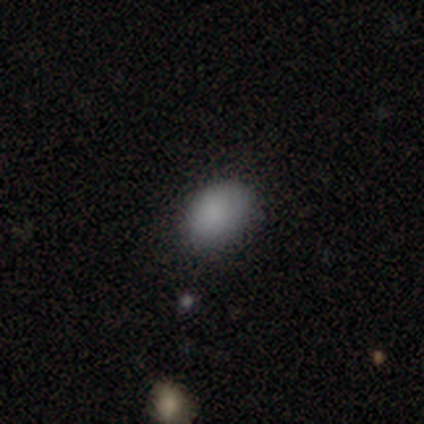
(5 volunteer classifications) Smooth or featured? 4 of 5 (80%) said smooth. How rounded? 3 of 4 (75%) said in between. Merging? 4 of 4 (100%) said none.